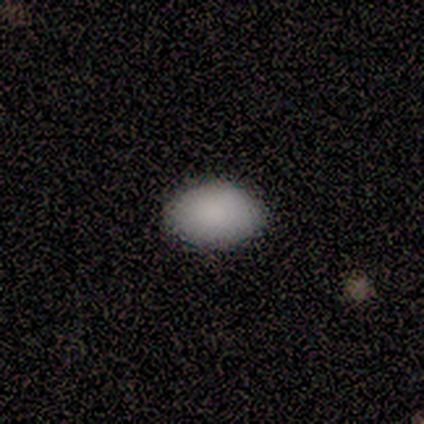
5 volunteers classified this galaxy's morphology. type=smooth (100%); roundness=in between (80%); merging=none (100%).